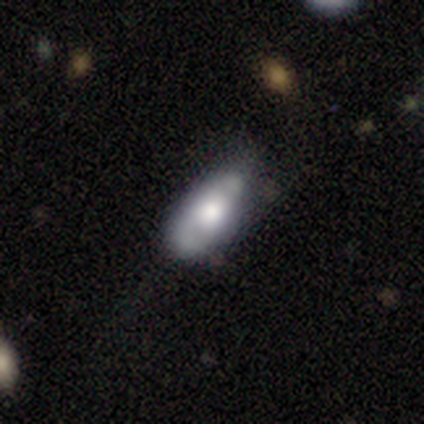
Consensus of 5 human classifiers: Smooth or featured? 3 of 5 (60%) said smooth. How rounded? 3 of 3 (100%) said in between. Merging? 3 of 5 (60%) said none.